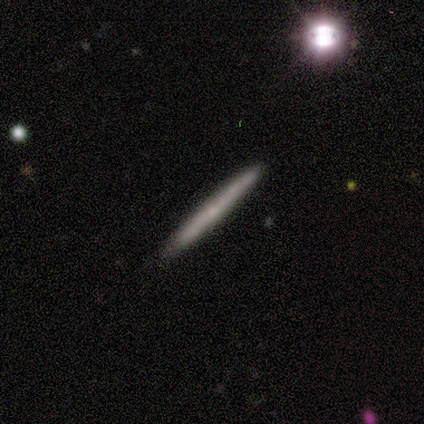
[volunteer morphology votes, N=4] Smooth or featured?
  - smooth: 50% * (tied)
  - featured or disk: 50% * (tied)
  - star or artifact: 0%
How rounded?
  - cigar-shaped: 100% *
  - round: 0%
  - in between: 0%
Merging?
  - none: 100% *
  - minor disturbance: 0%
  - major disturbance: 0%
  - merger: 0%